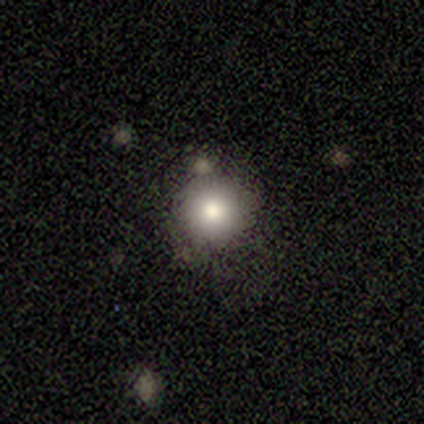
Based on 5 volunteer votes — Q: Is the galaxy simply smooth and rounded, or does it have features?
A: smooth — 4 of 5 (80%).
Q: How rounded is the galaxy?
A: round — 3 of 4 (75%).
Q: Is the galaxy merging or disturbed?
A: none — 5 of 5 (100%).